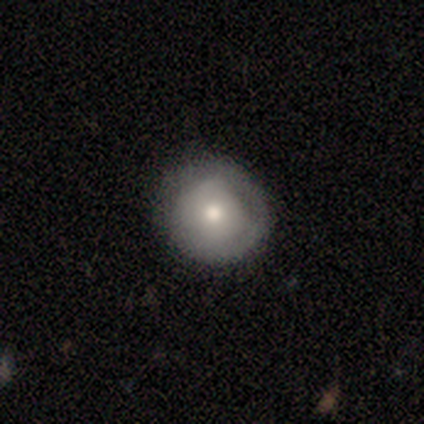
Overall: smooth (60%; featured or disk 40%). How rounded: round (100%). Merging: none (80%).